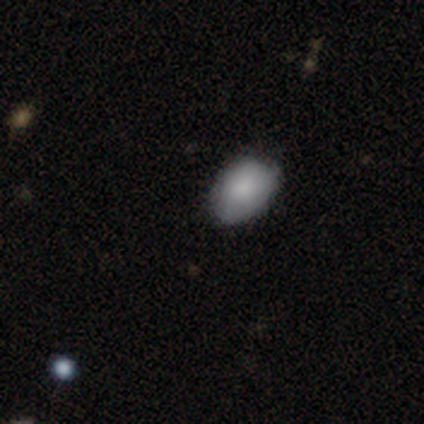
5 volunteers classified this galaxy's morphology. Smooth or featured: smooth — 100%
How rounded: in between — 80% (round — 20%)
Merging: none — 40% (tied with major disturbance — 40%)